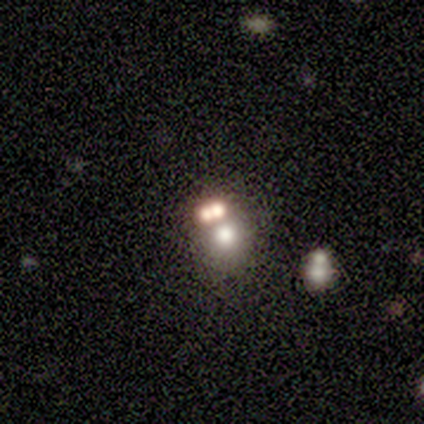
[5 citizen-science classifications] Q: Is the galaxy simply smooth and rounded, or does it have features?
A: smooth — 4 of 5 (80%).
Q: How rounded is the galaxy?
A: round — 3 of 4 (75%).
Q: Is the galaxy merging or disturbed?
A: merger — 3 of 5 (60%).